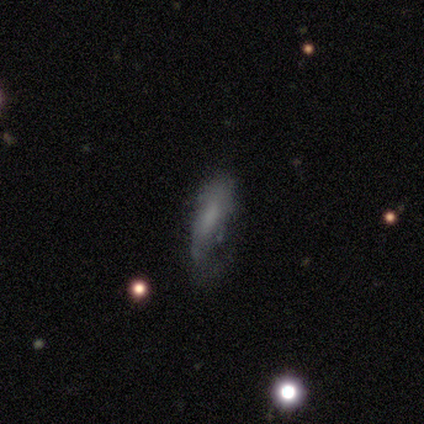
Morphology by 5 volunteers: Q: Smooth or featured?
A: featured or disk (60%); runner-up: smooth (40%)
Q: Edge-on disk?
A: yes (67%); runner-up: no (33%)
Q: Edge-on bulge?
A: none (50%); tied with: rounded (50%)
Q: Merging?
A: none (60%); runner-up: minor disturbance (40%)